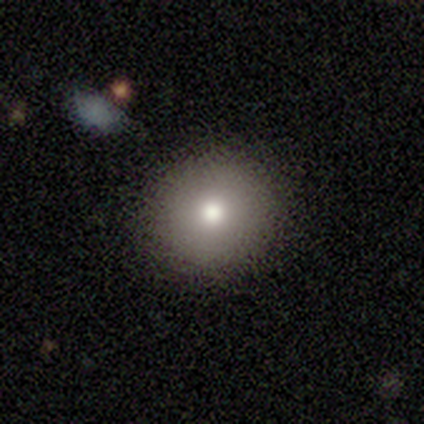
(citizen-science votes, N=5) A smooth galaxy with no disk features (80%) that is round (100%).

Vote fractions:
- Smooth or featured? smooth: 80% / star or artifact: 20% / featured or disk: 0%
- How rounded? round: 100% / in between: 0% / cigar-shaped: 0%
- Merging? none: 100% / minor disturbance: 0% / major disturbance: 0% / merger: 0%